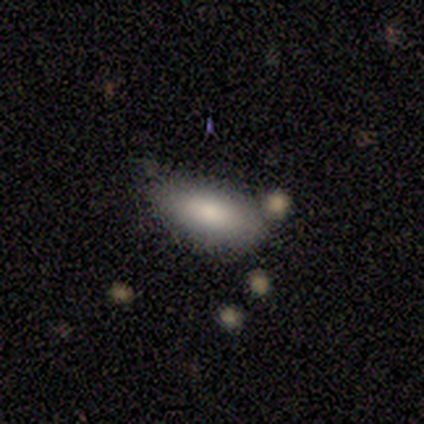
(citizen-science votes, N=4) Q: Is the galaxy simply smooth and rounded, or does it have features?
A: smooth — 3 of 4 (75%).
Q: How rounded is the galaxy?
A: in between — 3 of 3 (100%).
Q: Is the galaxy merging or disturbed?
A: minor disturbance — 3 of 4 (75%).